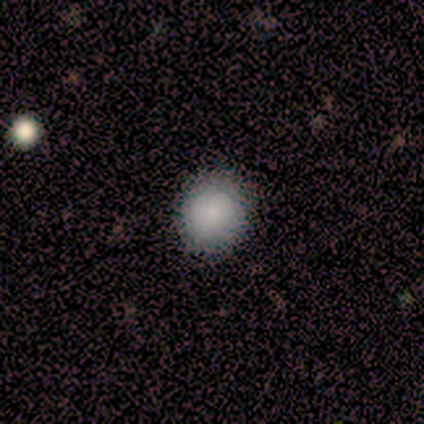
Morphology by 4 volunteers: smooth_or_featured: smooth (p=0.75) [alt: star or artifact p=0.25]
how_rounded: round (p=0.67) [alt: in between p=0.33]
merging: none (p=1.00)